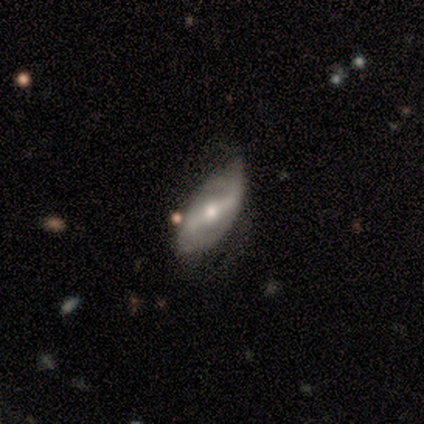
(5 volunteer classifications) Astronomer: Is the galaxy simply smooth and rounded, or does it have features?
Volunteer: featured or disk — 80%.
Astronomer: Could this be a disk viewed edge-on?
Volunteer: no — 75%.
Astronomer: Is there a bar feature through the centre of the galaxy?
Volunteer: strong — 67%.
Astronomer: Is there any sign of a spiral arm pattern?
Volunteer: yes — 100%.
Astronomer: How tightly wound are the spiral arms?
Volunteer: loose — 67%.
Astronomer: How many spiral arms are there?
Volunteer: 2 — 100%.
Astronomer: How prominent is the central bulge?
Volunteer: moderate — 67%.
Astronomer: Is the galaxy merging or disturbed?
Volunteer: none — 60%.